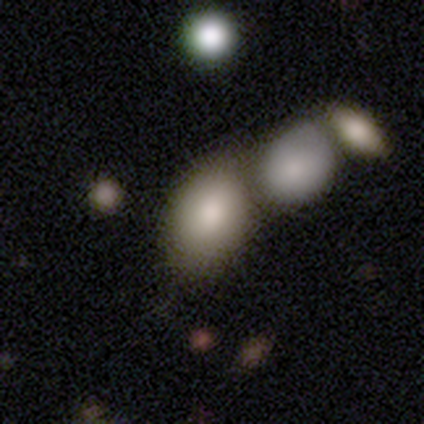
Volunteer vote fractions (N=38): Q: Smooth or featured?
A: smooth (87%); runner-up: featured or disk (8%)
Q: How rounded?
A: in between (82%); runner-up: round (18%)
Q: Merging?
A: merger (42%); runner-up: none (28%)